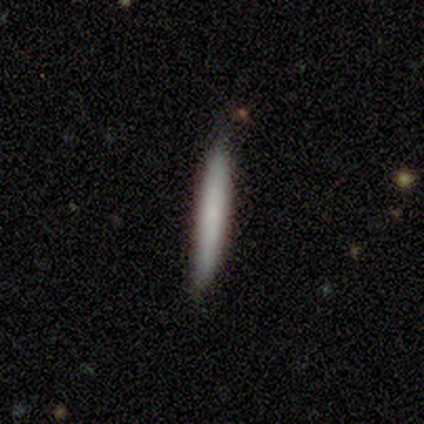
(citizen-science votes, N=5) Smooth or featured? smooth (60%)
How rounded? cigar-shaped (100%)
Merging? none (100%)